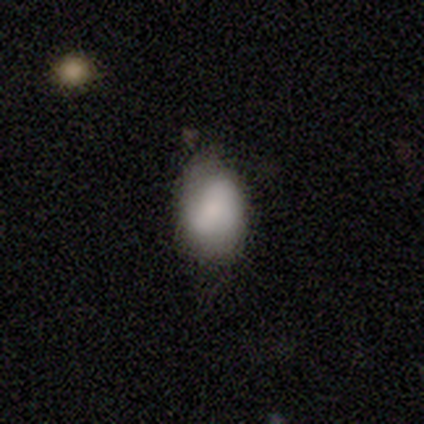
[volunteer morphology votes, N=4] This is likely a smooth galaxy (75%). How rounded: clearly in between (100%). Merging: likely minor disturbance (75%).